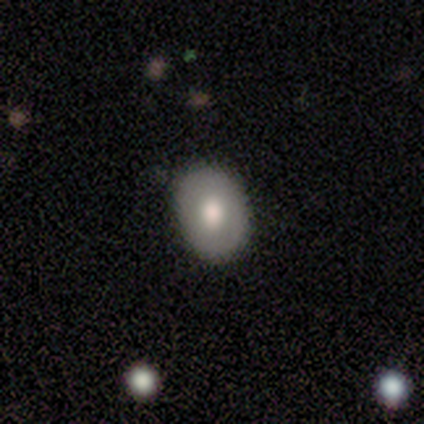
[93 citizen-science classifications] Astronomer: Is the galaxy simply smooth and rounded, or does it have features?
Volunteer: smooth — 74%.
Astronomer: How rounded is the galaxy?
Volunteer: in between — 72%.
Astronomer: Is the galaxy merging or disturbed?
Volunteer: none — 81%.